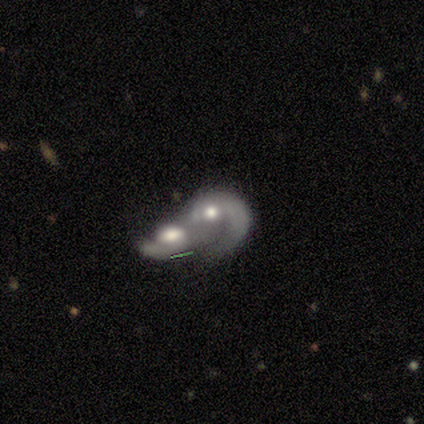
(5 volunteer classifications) A featured or disk galaxy (100%) with no bar (75%), 1 (75%) medium (75%) spiral arms (100%) and a moderate central bulge (75%).

Vote fractions:
- Smooth or featured? featured or disk: 100% / smooth: 0% / star or artifact: 0%
- Edge-on disk? no: 80% / yes: 20%
- Bar? no: 75% / weak: 25% / strong: 0%
- Spiral arms? yes: 100% / no: 0%
- Spiral winding? medium: 75% / loose: 25% / tight: 0%
- Spiral arm count? 1: 75% / can't tell: 25% / 2: 0% / 3: 0% / 4: 0% / more than 4: 0%
- Bulge size? moderate: 75% / small: 25% / dominant: 0% / large: 0% / none: 0%
- Merging? merger: 100% / none: 0% / minor disturbance: 0% / major disturbance: 0%